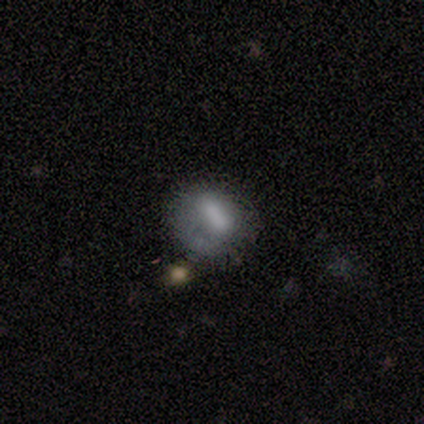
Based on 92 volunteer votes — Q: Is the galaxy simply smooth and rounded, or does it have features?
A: smooth — 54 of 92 (59%).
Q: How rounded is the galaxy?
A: round — 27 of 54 (50%).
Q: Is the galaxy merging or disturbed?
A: minor disturbance — 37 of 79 (47%).